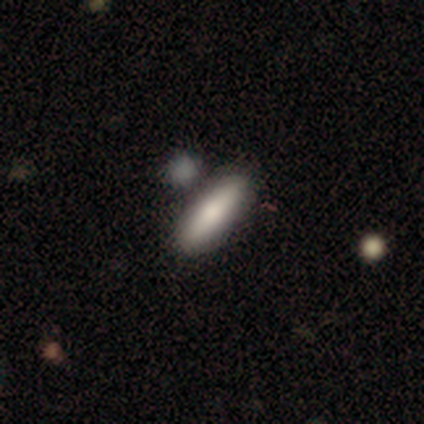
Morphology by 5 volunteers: A smooth galaxy with no disk features (60%) that is in between round and cigar-shaped (100%).

Vote fractions:
- Smooth or featured? smooth: 60% / featured or disk: 40% / star or artifact: 0%
- How rounded? in between: 100% / round: 0% / cigar-shaped: 0%
- Merging? none: 60% / minor disturbance: 40% / major disturbance: 0% / merger: 0%